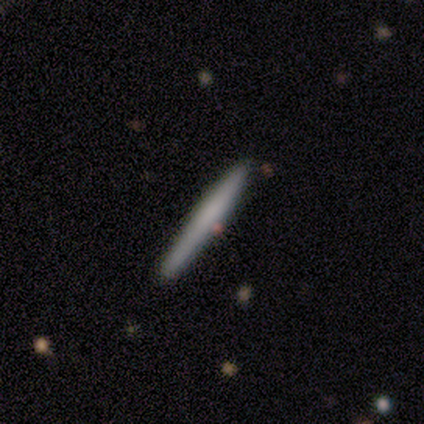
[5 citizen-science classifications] This appears to be a smooth galaxy with no disk features (80%) that is cigar-shaped (100%). Merging: none (80%).